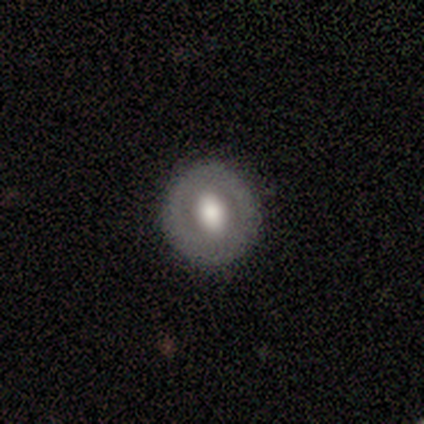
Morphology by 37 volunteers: smooth_or_featured: smooth (p=0.51) [alt: featured or disk p=0.49]
how_rounded: round (p=0.84) [alt: in between p=0.16]
merging: none (p=0.84) [alt: minor disturbance p=0.16]